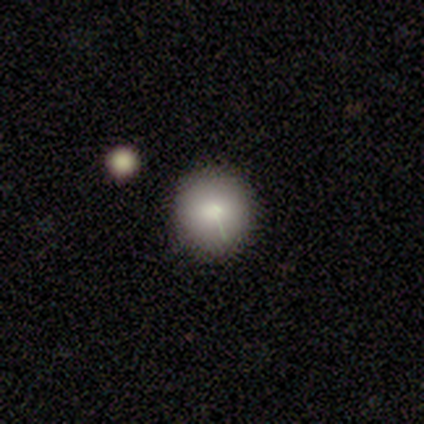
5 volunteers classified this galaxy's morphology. A smooth galaxy with no disk features (100%) that is round (100%).

Vote fractions:
- Smooth or featured? smooth: 100% / featured or disk: 0% / star or artifact: 0%
- How rounded? round: 100% / in between: 0% / cigar-shaped: 0%
- Merging? none: 100% / minor disturbance: 0% / major disturbance: 0% / merger: 0%